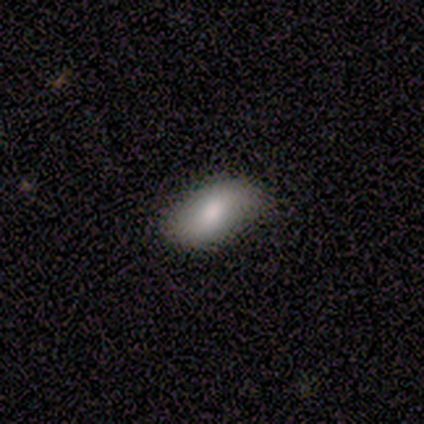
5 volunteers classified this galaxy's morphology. smooth-or-featured: smooth: 80% | star or artifact: 20% | featured or disk: 0%
  how-rounded: in between: 100% | round: 0% | cigar-shaped: 0%
  merging: none: 100% | minor disturbance: 0% | major disturbance: 0% | merger: 0%